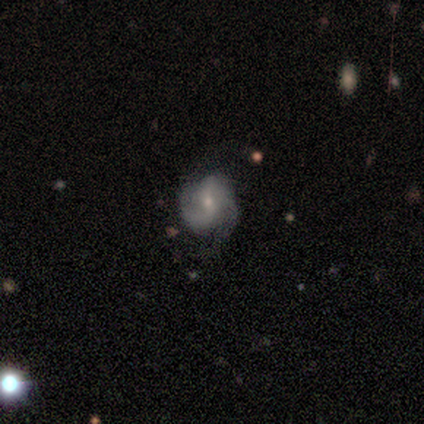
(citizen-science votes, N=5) A featured or disk galaxy (60%) with no bar (67%), 2 (100%) tight (50%, tied with medium) spiral arms (67%) and a small central bulge (100%). Merging: none (75%).